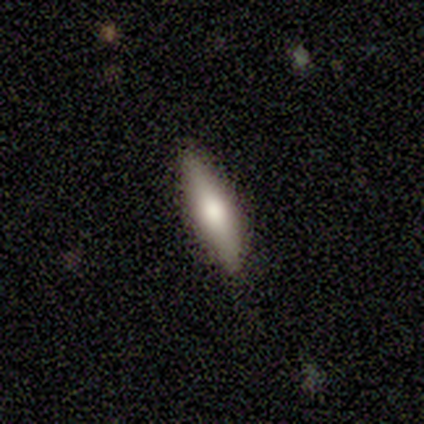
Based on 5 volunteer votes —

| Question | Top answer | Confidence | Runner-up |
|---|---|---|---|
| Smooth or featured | smooth | 60% | featured or disk (40%) |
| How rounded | cigar-shaped | 100% | — |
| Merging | none | 80% | minor disturbance (20%) |